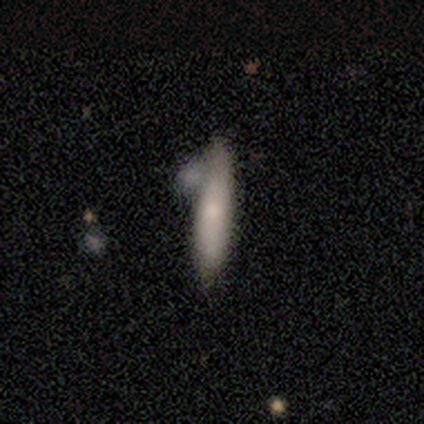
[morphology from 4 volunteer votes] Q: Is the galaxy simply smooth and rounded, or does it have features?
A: smooth — 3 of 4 (75%).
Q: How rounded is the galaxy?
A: cigar-shaped — 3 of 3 (100%).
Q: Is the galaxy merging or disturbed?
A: merger — 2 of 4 (50%).